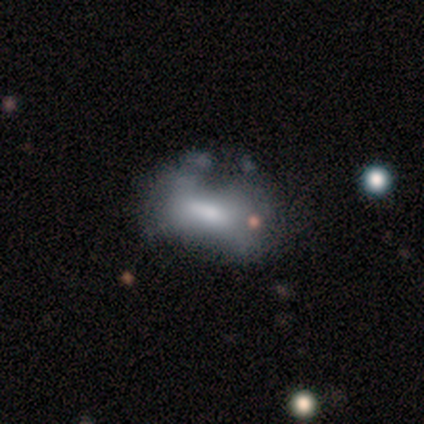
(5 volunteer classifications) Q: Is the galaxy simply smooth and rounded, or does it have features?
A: smooth — 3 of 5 (60%).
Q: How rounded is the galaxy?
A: cigar-shaped — 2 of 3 (67%).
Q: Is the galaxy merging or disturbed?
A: major disturbance — 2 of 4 (50%).